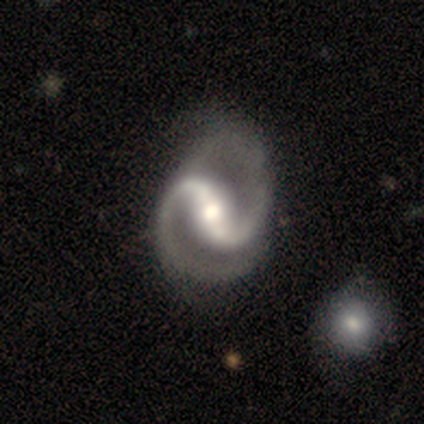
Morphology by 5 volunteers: type=featured or disk (100%); edge-on=no (100%); bar=strong (40%, tied with weak); spiral arms=yes (100%); winding=medium (80%); arm count=2 (100%); bulge=moderate (60%); merging=major disturbance (80%).